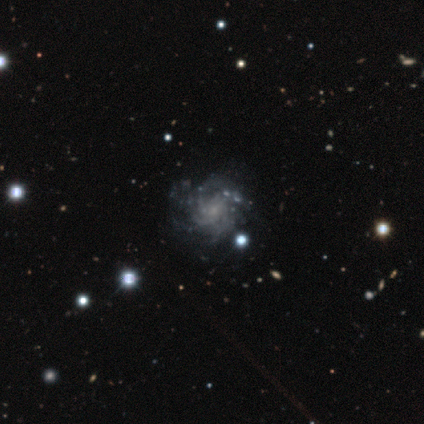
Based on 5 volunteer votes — This appears to be a featured or disk galaxy (60%) with no bar (100%), tight (33%, tied with medium and loose) spiral arms (100%) and a small central bulge (67%). Merging: none (40%).